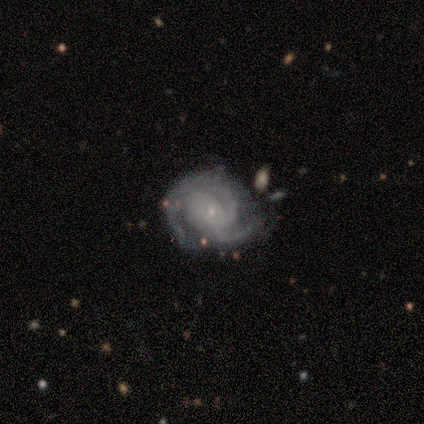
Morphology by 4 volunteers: A featured or disk galaxy (100%) with no bar (75%), 2 (50%, tied with 3) tight (50%, tied with medium) spiral arms (100%) and a small central bulge (75%).

Vote fractions:
- Smooth or featured? featured or disk: 100% / smooth: 0% / star or artifact: 0%
- Edge-on disk? no: 100% / yes: 0%
- Bar? no: 75% / strong: 25% / weak: 0%
- Spiral arms? yes: 100% / no: 0%
- Spiral winding? tight: 50% (tied) / medium: 50% (tied) / loose: 0%
- Spiral arm count? 2: 50% (tied) / 3: 50% (tied) / 1: 0% / 4: 0% / more than 4: 0% / can't tell: 0%
- Bulge size? small: 75% / moderate: 25% / dominant: 0% / large: 0% / none: 0%
- Merging? minor disturbance: 100% / none: 0% / major disturbance: 0% / merger: 0%